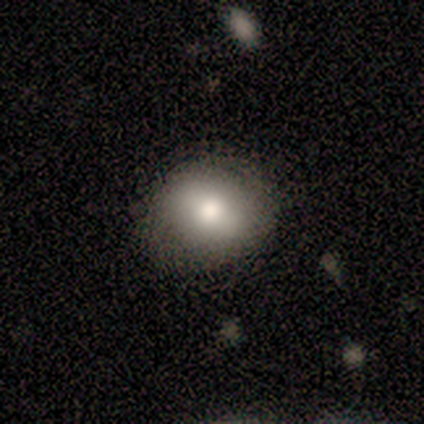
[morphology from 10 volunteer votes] Smooth or featured? smooth (90%)
How rounded? round (56%)
Merging? none (70%)